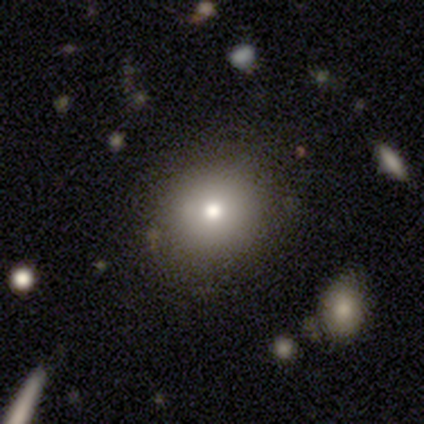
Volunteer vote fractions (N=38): Morphology: type=smooth (76%); roundness=round (86%); merging=none (91%).